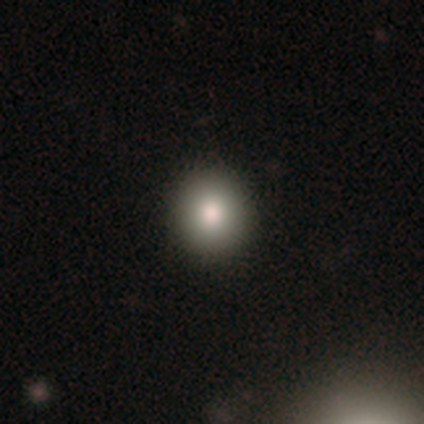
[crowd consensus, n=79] Overall: smooth (86%). How rounded: round (94%). Merging: none (48%).